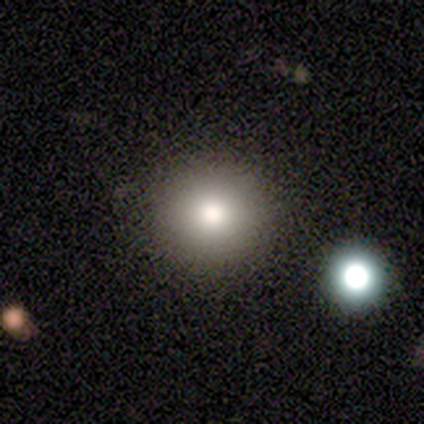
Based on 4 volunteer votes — Smooth or featured? smooth (75%)
How rounded? round (100%)
Merging? none (100%)